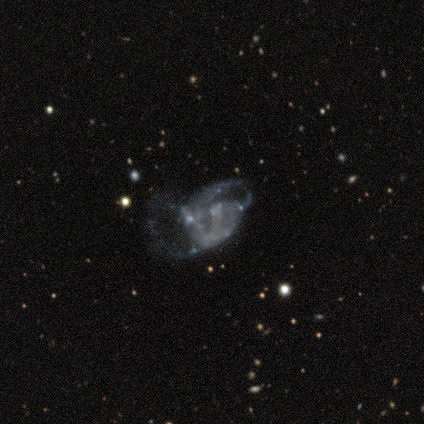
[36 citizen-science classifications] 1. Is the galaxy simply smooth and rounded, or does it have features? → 69% featured or disk, 22% star or artifact, 8% smooth.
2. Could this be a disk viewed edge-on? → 96% no, 4% yes.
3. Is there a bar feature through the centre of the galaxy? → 96% no, 4% weak, 0% strong.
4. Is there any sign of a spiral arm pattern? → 75% no, 25% yes.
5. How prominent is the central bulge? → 92% none, 4% moderate, 4% small, 0% dominant, 0% large.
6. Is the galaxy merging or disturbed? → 57% major disturbance, 18% merger, 14% minor disturbance, 11% none.